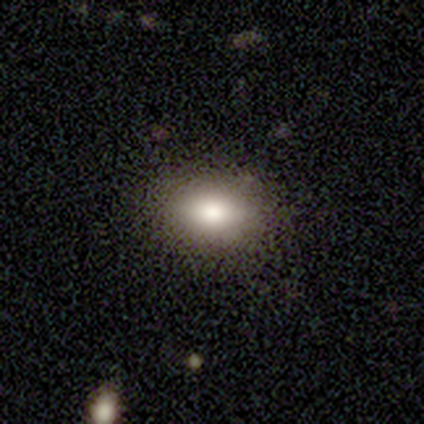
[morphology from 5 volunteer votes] This appears to be a smooth galaxy with no disk features (80%) that is in between round and cigar-shaped (75%). Merging: none (100%).